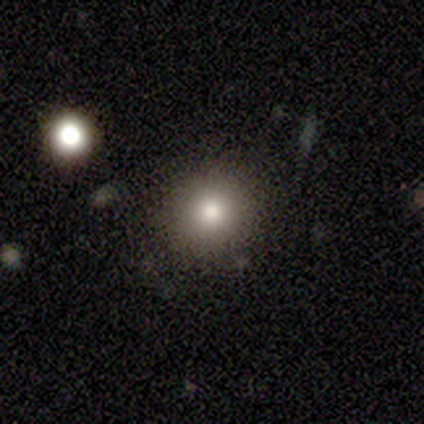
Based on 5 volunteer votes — smooth_or_featured: smooth (p=0.80) [alt: featured or disk p=0.20]
how_rounded: round (p=0.75) [alt: in between p=0.25]
merging: none (p=1.00)